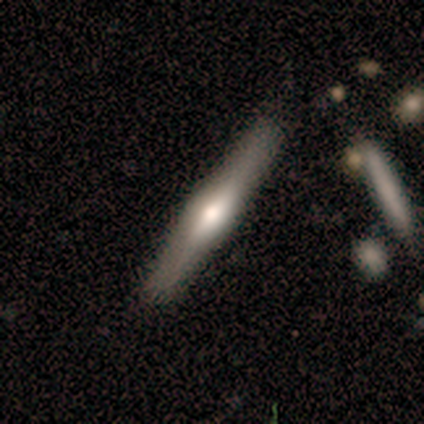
A featured or disk galaxy (79%) viewed edge-on (98%) with a rounded central bulge (81%).

Vote fractions:
- Smooth or featured? featured or disk: 79% / smooth: 15% / star or artifact: 6%
- Edge-on disk? yes: 98% / no: 2%
- Edge-on bulge? rounded: 81% / boxy: 19% / none: 0%
- Merging? none: 84% / minor disturbance: 13% / merger: 3% / major disturbance: 0%